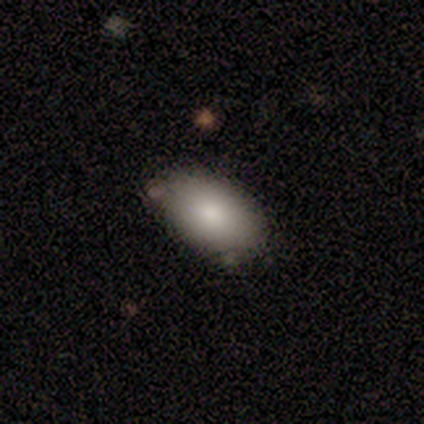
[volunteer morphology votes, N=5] smooth_or_featured: smooth (p=0.80) [alt: featured or disk p=0.20]
how_rounded: in between (p=1.00)
merging: none (p=0.40) [tied with: minor disturbance p=0.40]